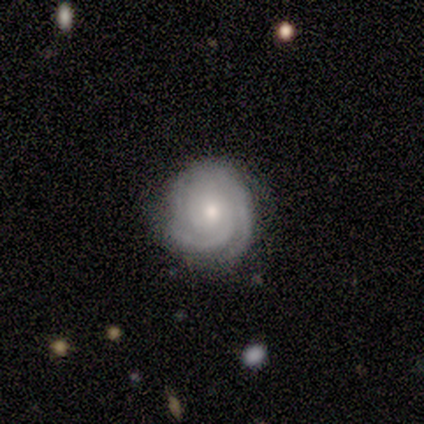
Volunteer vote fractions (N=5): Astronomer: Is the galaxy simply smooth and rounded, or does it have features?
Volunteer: featured or disk — 100%.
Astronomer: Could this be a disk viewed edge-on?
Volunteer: no — 100%.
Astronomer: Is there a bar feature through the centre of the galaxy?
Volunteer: no — 100%.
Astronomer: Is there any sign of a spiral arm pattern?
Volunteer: yes — 100%.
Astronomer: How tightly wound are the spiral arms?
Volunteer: tight — 80%.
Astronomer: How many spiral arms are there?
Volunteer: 3 — 60%.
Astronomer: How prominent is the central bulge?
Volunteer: moderate — 40%, tied with small at 40%.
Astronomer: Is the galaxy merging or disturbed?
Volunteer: none — 60%.